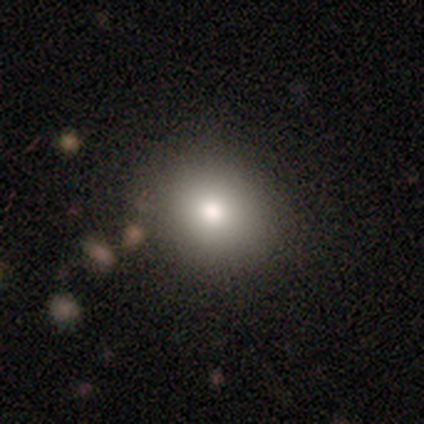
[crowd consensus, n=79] Volunteers were most divided on "merging": none: 41%, minor disturbance: 7%, major disturbance: 1%, merger: 1%. More confident: how rounded — round (89%); smooth or featured — smooth (80%).